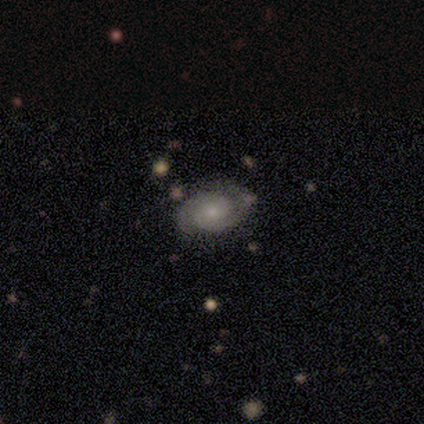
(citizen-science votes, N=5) A featured or disk galaxy (80%) with a weak bar (50%, tied with no), 2 (100%) tight (50%) spiral arms (100%) and a moderate central bulge (50%, tied with small).

Vote fractions:
- Smooth or featured? featured or disk: 80% / smooth: 20% / star or artifact: 0%
- Edge-on disk? no: 100% / yes: 0%
- Bar? weak: 50% (tied) / no: 50% (tied) / strong: 0%
- Spiral arms? yes: 100% / no: 0%
- Spiral winding? tight: 50% / medium: 25% / loose: 25%
- Spiral arm count? 2: 100% / 1: 0% / 3: 0% / 4: 0% / more than 4: 0% / can't tell: 0%
- Bulge size? moderate: 50% (tied) / small: 50% (tied) / dominant: 0% / large: 0% / none: 0%
- Merging? none: 80% / minor disturbance: 20% / major disturbance: 0% / merger: 0%